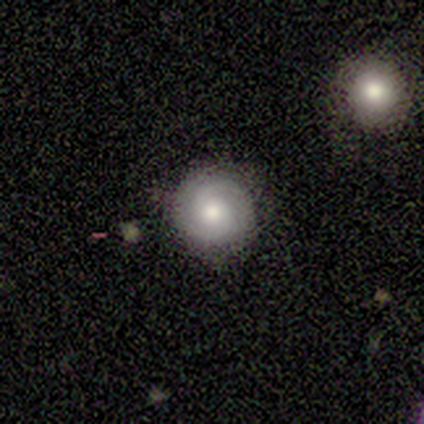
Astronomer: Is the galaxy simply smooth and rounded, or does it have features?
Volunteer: smooth — 50%, tied with featured or disk at 50%.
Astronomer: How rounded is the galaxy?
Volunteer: round — 100%.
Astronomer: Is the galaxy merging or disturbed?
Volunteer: none — 100%.